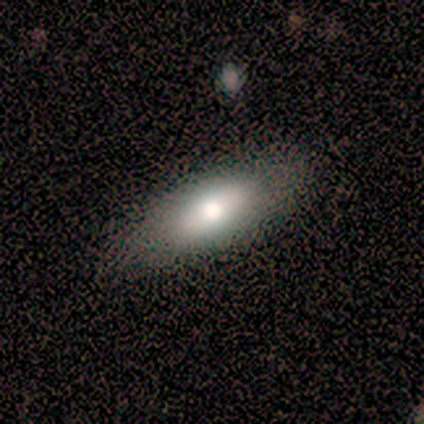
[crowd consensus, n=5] smooth-or-featured: smooth: 100% | featured or disk: 0% | star or artifact: 0%
  how-rounded: in between: 80% | cigar-shaped: 20% | round: 0%
  merging: none: 80% | minor disturbance: 20% | major disturbance: 0% | merger: 0%